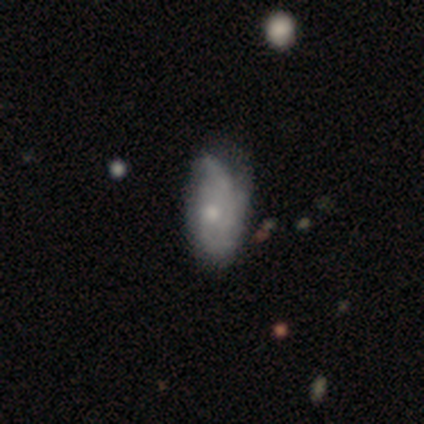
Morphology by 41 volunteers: A featured or disk galaxy (54%) with no bar (81%), 2 (38%, tied with can't tell) medium (56%) spiral arms (76%) and a small central bulge (43%).

Vote fractions:
- Smooth or featured? featured or disk: 54% / smooth: 44% / star or artifact: 2%
- Edge-on disk? no: 95% / yes: 5%
- Bar? no: 81% / weak: 14% / strong: 5%
- Spiral arms? yes: 76% / no: 24%
- Spiral winding? medium: 56% / loose: 25% / tight: 19%
- Spiral arm count? 2: 38% (tied) / can't tell: 38% (tied) / 3: 25% / 1: 0% / 4: 0% / more than 4: 0%
- Bulge size? small: 43% / moderate: 38% / large: 10% / dominant: 5% / none: 5%
- Merging? minor disturbance: 42% / none: 38% / major disturbance: 20% / merger: 0%